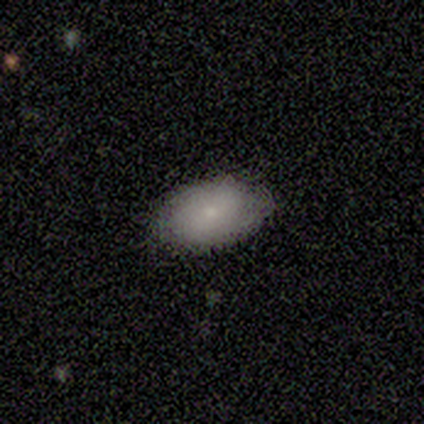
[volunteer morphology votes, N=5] A smooth galaxy with no disk features (100%) that is in between round and cigar-shaped (100%). Merging: none (80%).